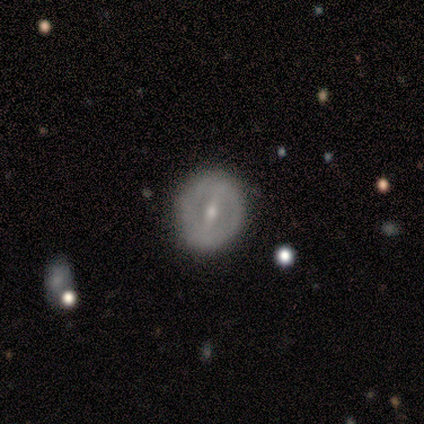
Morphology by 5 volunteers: Q: Smooth or featured?
A: featured or disk (80%); runner-up: smooth (20%)
Q: Edge-on disk?
A: no (100%)
Q: Bar?
A: strong (100%)
Q: Spiral arms?
A: no (75%); runner-up: yes (25%)
Q: Bulge size?
A: moderate (50%); tied with: small (50%)
Q: Merging?
A: none (100%)